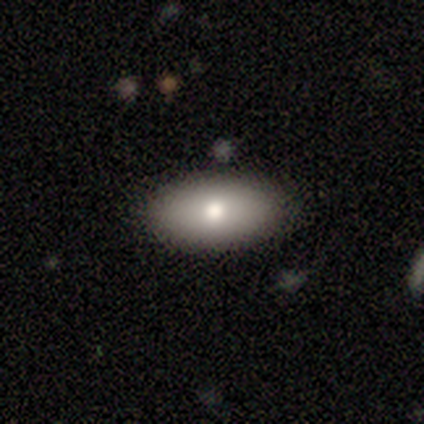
A smooth galaxy with no disk features (80%) that is in between round and cigar-shaped (100%). Merging: none (80%).